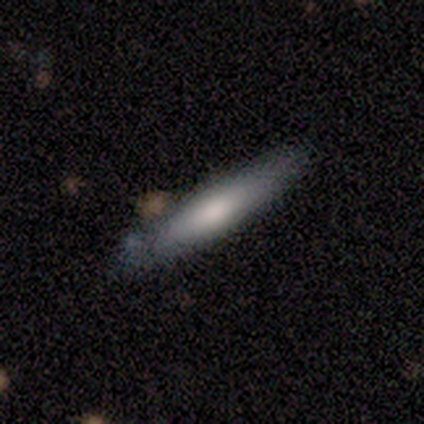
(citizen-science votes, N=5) Smooth or featured: smooth — 80% (featured or disk — 20%)
How rounded: cigar-shaped — 75% (in between — 25%)
Merging: none — 60% (merger — 40%)